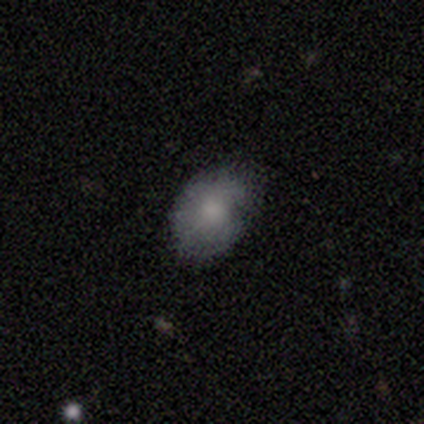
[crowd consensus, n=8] A smooth galaxy with no disk features (50%, tied with featured or disk) that is in between round and cigar-shaped (75%).

Vote fractions:
- Smooth or featured? smooth: 50% (tied) / featured or disk: 50% (tied) / star or artifact: 0%
- How rounded? in between: 75% / round: 25% / cigar-shaped: 0%
- Merging? none: 75% / minor disturbance: 25% / major disturbance: 0% / merger: 0%